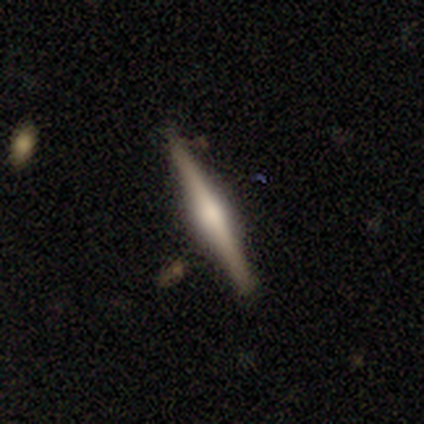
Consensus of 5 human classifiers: Volunteers were most divided on "smooth or featured": featured or disk: 60%, smooth: 40%, star or artifact: 0%. More confident: edge-on disk — yes (100%); edge-on bulge — rounded (100%); merging — none (100%).